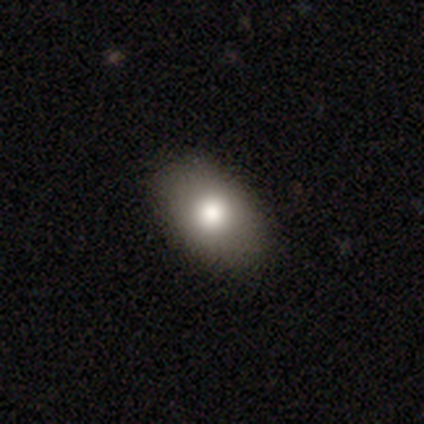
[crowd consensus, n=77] Smooth or featured? 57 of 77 (74%) said smooth. How rounded? 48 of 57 (84%) said in between. Merging? 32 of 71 (45%) said none.